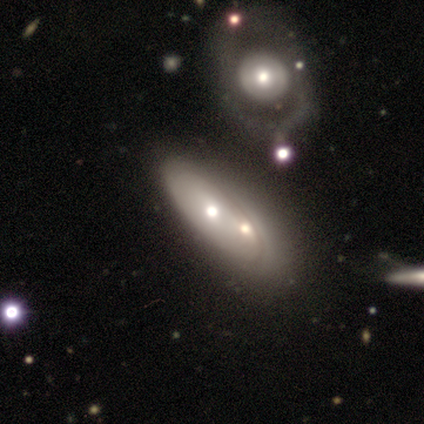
featured or disk 59%, smooth 39%, star or artifact 2%. Down the decision tree: edge-on disk — no (91%); bar — no (94%); spiral arms — no (94%); bulge size — moderate (53%); merging — merger (52%).